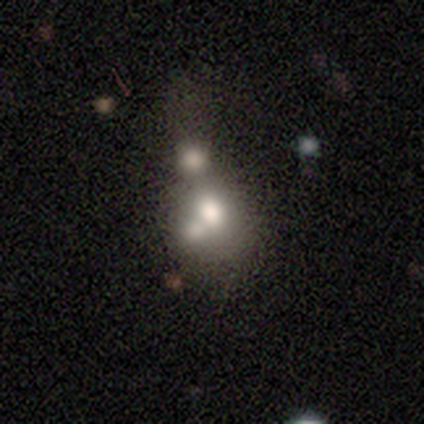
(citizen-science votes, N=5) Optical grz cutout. It shows a featured or disk galaxy (60%) with no bar (100%), no spiral arms (100%) and a dominant central bulge (33%, tied with large and moderate). Merging: merger (75%).